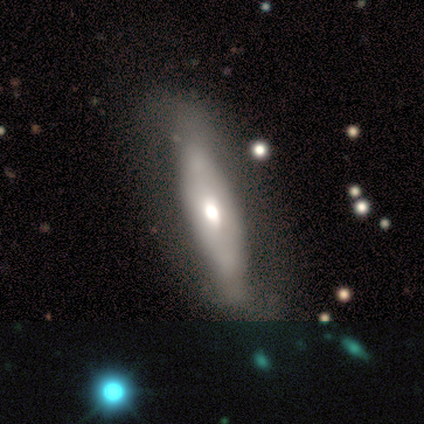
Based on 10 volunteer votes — A smooth galaxy with no disk features (50%, tied with featured or disk) that is in between round and cigar-shaped (60%).

Vote fractions:
- Smooth or featured? smooth: 50% (tied) / featured or disk: 50% (tied) / star or artifact: 0%
- How rounded? in between: 60% / cigar-shaped: 40% / round: 0%
- Merging? none: 80% / minor disturbance: 10% / major disturbance: 10% / merger: 0%